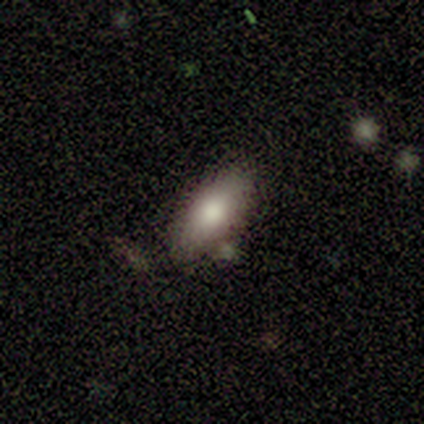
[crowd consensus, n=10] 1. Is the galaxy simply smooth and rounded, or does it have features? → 80% smooth, 20% featured or disk, 0% star or artifact.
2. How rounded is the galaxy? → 62% in between, 38% cigar-shaped, 0% round.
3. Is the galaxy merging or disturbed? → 90% none, 10% minor disturbance, 0% major disturbance, 0% merger.